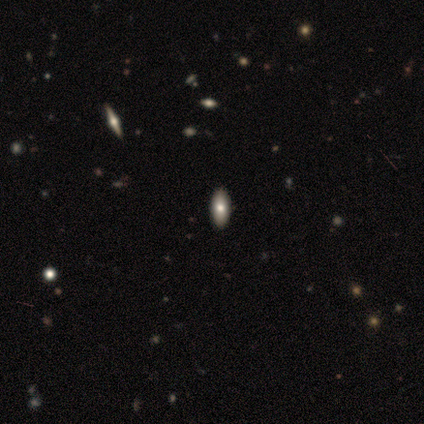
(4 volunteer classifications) Overall: smooth (100%). How rounded: in between (100%). Merging: none (100%).